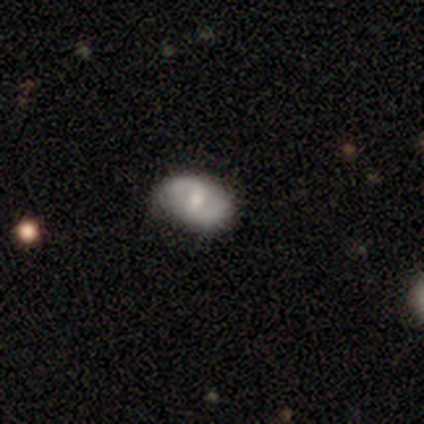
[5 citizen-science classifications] featured or disk 80%, smooth 20%, star or artifact 0%. Down the decision tree: edge-on disk — no (100%); bar — weak (50%, tied with no); spiral arms — yes (50%, tied with no); spiral arm count — 2 (50%, tied with can't tell); spiral winding — medium (50%, tied with loose); bulge size — moderate (75%); merging — none (80%).